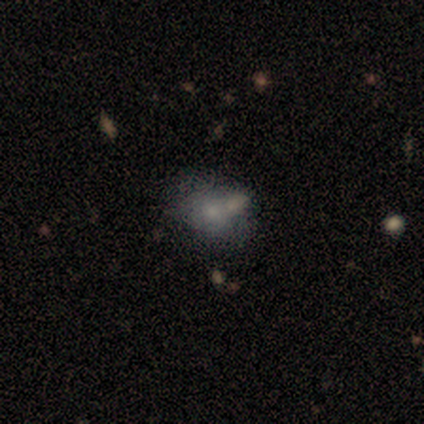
smooth_or_featured: smooth (p=0.50) [alt: featured or disk p=0.25]
how_rounded: in between (p=1.00)
merging: merger (p=1.00)